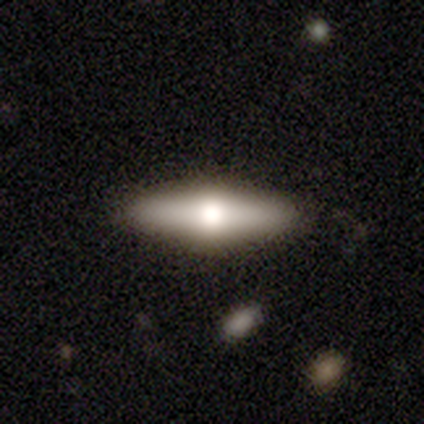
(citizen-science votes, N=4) Q: Smooth or featured?
A: smooth (50%); tied with: featured or disk (50%)
Q: How rounded?
A: in between (50%); tied with: cigar-shaped (50%)
Q: Merging?
A: none (50%); tied with: minor disturbance (50%)